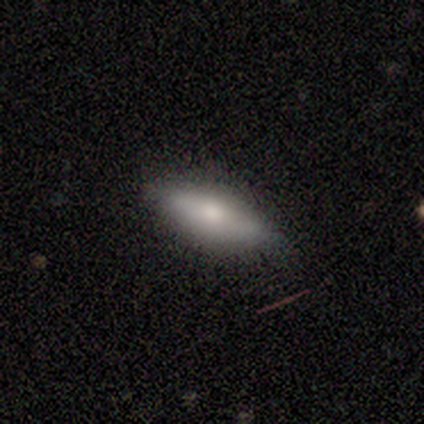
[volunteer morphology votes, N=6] smooth-or-featured: smooth: 83% | featured or disk: 17% | star or artifact: 0%
  how-rounded: in between: 40% (tied) | cigar-shaped: 40% (tied) | round: 20%
  merging: none: 83% | minor disturbance: 17% | major disturbance: 0% | merger: 0%